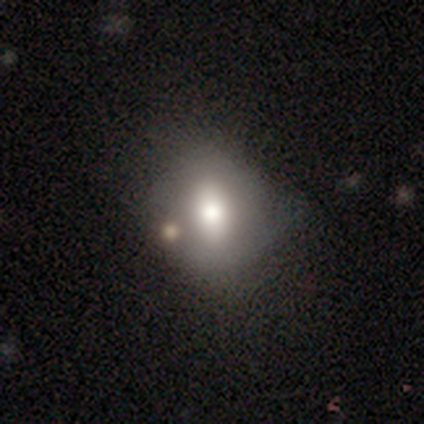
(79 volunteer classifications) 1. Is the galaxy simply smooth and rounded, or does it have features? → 71% smooth, 23% featured or disk, 6% star or artifact.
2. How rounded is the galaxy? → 54% in between, 46% round, 0% cigar-shaped.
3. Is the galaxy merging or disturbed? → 28% none, 12% merger, 11% minor disturbance, 3% major disturbance.